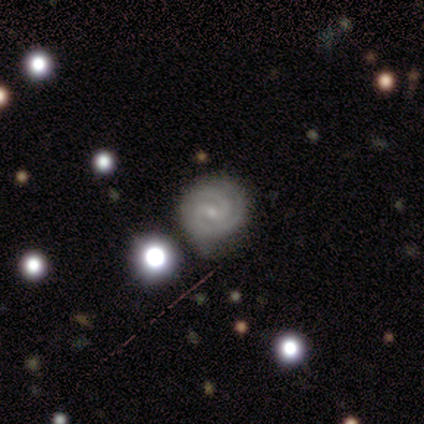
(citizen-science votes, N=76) Volunteers were most divided on "bar": weak: 60%, no: 28%, strong: 12%. More confident: edge-on disk — no (98%); spiral arms — yes (98%); smooth or featured — featured or disk (87%); spiral arm count — 2 (80%); merging — none (72%); spiral winding — tight (69%); bulge size — small (66%).